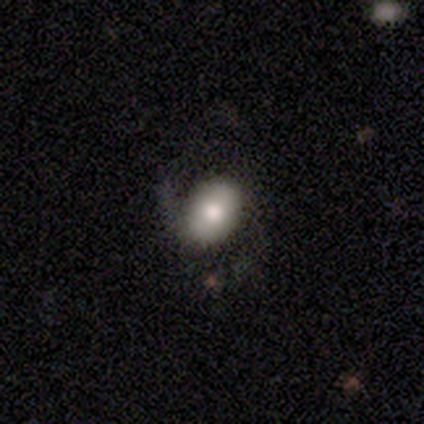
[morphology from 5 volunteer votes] Volunteers were most divided on "smooth or featured": smooth: 60%, featured or disk: 40%, star or artifact: 0%. More confident: merging — none (80%); how rounded — in between (67%).